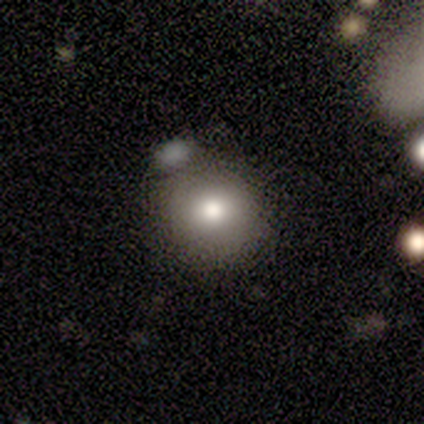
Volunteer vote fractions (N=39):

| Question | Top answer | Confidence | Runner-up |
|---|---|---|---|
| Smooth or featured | smooth | 72% | featured or disk (15%) |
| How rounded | round | 86% | in between (14%) |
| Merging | none | 68% | minor disturbance (15%) |